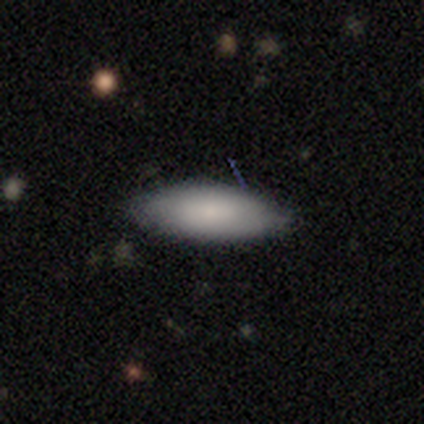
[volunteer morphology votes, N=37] Overall: smooth (86%). How rounded: in between (81%). Merging: none (92%).